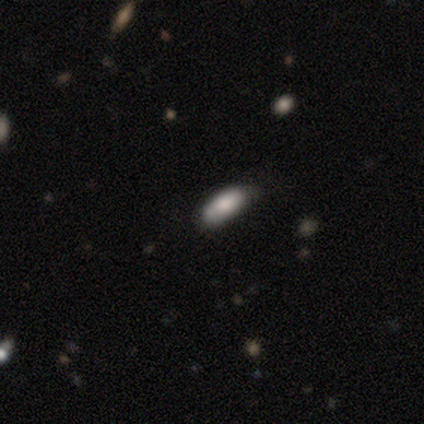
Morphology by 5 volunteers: Smooth or featured? 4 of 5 (80%) said smooth. How rounded? 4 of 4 (100%) said cigar-shaped. Merging? 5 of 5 (100%) said none.